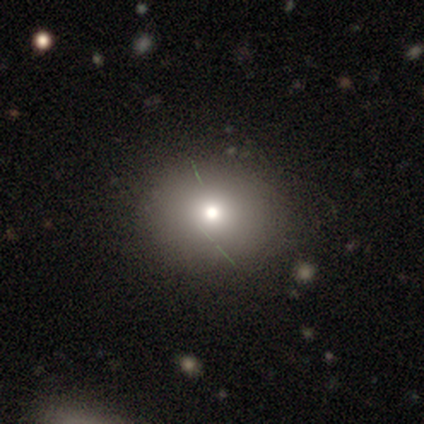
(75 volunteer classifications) A smooth galaxy with no disk features (72%) that is round (65%).

Vote fractions:
- Smooth or featured? smooth: 72% / star or artifact: 17% / featured or disk: 11%
- How rounded? round: 65% / in between: 35% / cigar-shaped: 0%
- Merging? none: 42% / minor disturbance: 8% / major disturbance: 3% / merger: 3%